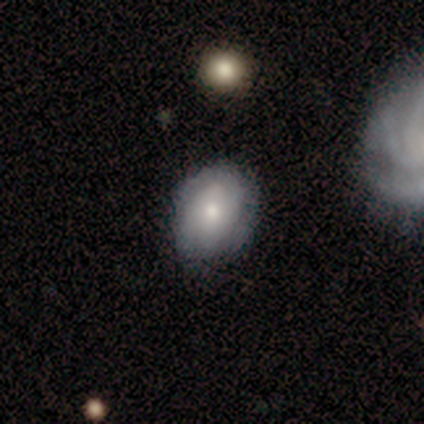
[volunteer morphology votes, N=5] smooth 60%, featured or disk 40%, star or artifact 0%. Down the decision tree: how rounded — in between (67%); merging — none (60%).